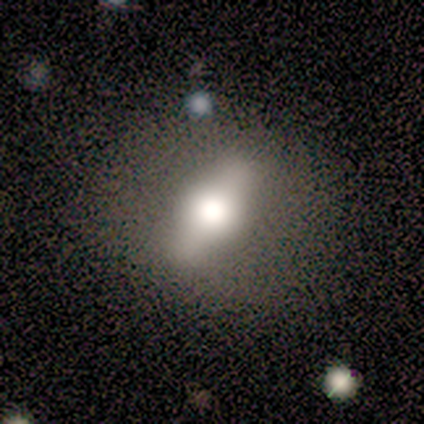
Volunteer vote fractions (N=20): Smooth or featured: featured or disk — 70% (smooth — 20%)
Edge-on disk: yes — 71% (no — 29%)
Edge-on bulge: rounded — 100%
Merging: none — 89% (minor disturbance — 11%)